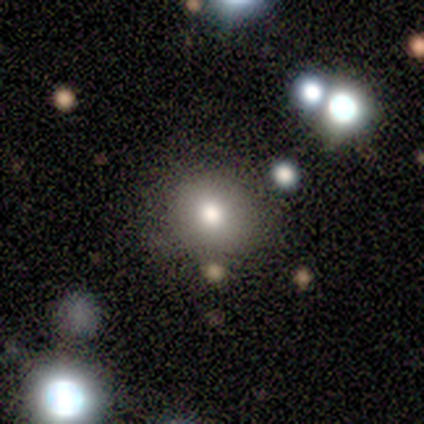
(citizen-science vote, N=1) Smooth or featured?
  - smooth: 100% *
  - featured or disk: 0%
  - star or artifact: 0%
How rounded?
  - round: 100% *
  - in between: 0%
  - cigar-shaped: 0%
Merging?
  - none: 100% *
  - minor disturbance: 0%
  - major disturbance: 0%
  - merger: 0%